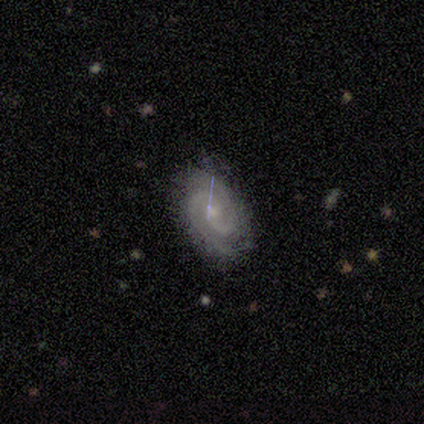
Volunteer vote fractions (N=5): featured or disk 80%, smooth 20%, star or artifact 0%. Down the decision tree: edge-on disk — no (100%); bar — no (75%); spiral arms — yes (75%); spiral arm count — 2 (33%, tied with 3 and can't tell); spiral winding — tight (100%); bulge size — small (75%); merging — none (60%).